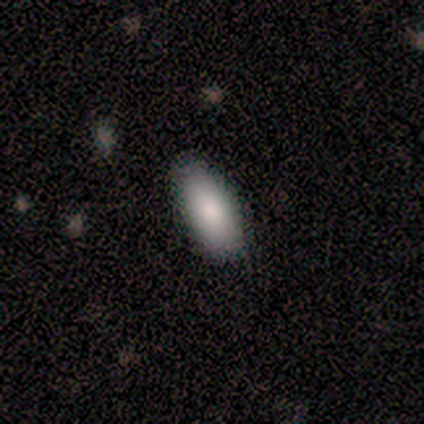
Smooth or featured?
  - smooth: 75% *
  - star or artifact: 25%
  - featured or disk: 0%
How rounded?
  - in between: 100% *
  - round: 0%
  - cigar-shaped: 0%
Merging?
  - none: 100% *
  - minor disturbance: 0%
  - major disturbance: 0%
  - merger: 0%